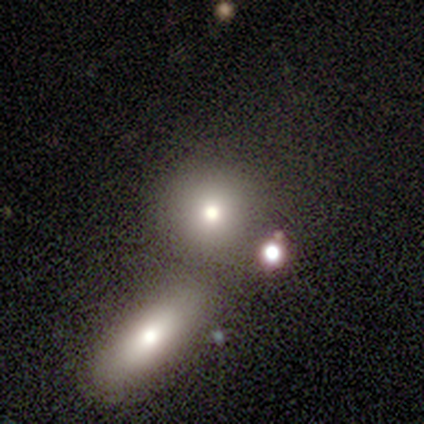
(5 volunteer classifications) smooth-or-featured: smooth: 100% | featured or disk: 0% | star or artifact: 0%
  how-rounded: round: 100% | in between: 0% | cigar-shaped: 0%
  merging: none: 100% | minor disturbance: 0% | major disturbance: 0% | merger: 0%